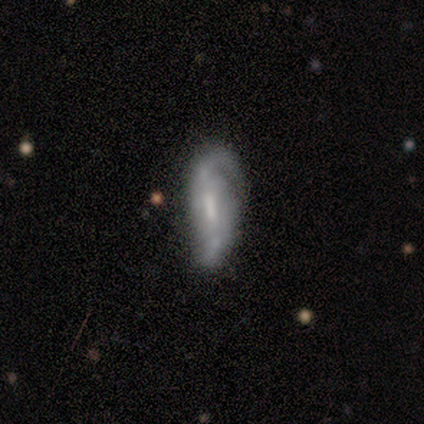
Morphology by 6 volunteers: Smooth or featured: featured or disk — 100%
Edge-on disk: no — 100%
Bar: strong — 33% (tied with weak — 33%; no — 33%)
Spiral arms: yes — 100%
Spiral winding: loose — 67% (medium — 33%)
Spiral arm count: 2 — 100%
Bulge size: moderate — 50% (small — 33%)
Merging: major disturbance — 67% (minor disturbance — 17%)